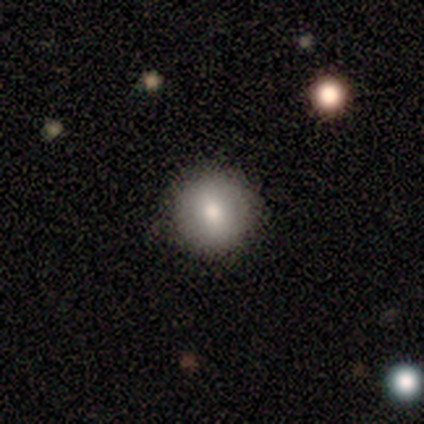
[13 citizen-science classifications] Volunteers were most divided on "how rounded": round: 92%, in between: 8%, cigar-shaped: 0%. More confident: merging — none (100%); smooth or featured — smooth (92%).